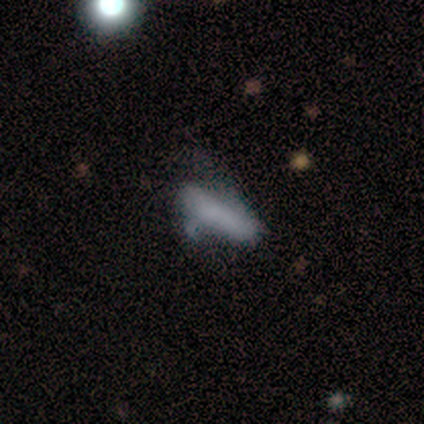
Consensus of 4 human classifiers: A smooth galaxy with no disk features (100%) that is cigar-shaped (100%). Merging: minor disturbance (50%, tied with major disturbance).